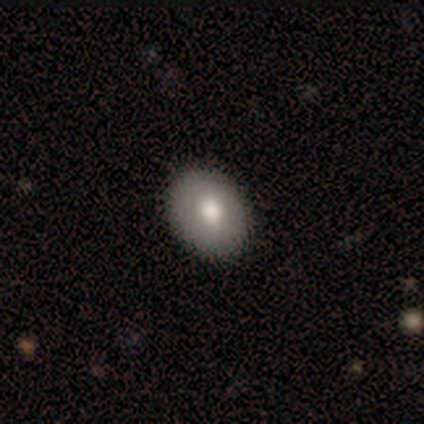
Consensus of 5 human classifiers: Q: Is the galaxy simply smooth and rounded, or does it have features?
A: smooth — 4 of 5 (80%).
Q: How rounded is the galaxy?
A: in between — 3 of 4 (75%).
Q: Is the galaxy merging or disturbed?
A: none — 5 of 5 (100%).